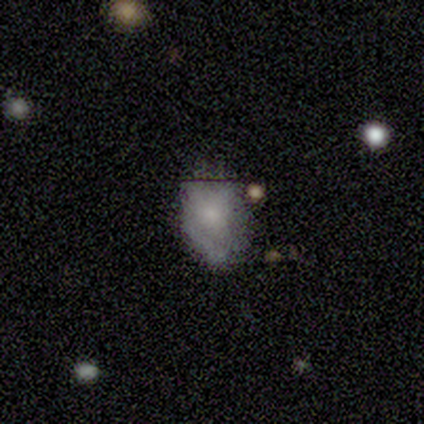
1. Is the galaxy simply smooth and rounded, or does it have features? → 100% featured or disk, 0% smooth, 0% star or artifact.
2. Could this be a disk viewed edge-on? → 100% no, 0% yes.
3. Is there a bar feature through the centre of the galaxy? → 100% no, 0% strong, 0% weak.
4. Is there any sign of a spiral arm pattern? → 100% no, 0% yes.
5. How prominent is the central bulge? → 100% large, 0% dominant, 0% moderate, 0% small, 0% none.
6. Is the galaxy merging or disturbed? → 100% major disturbance, 0% none, 0% minor disturbance, 0% merger.